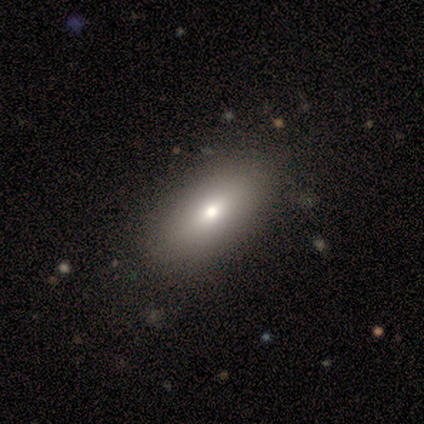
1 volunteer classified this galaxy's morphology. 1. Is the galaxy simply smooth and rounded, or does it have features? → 100% star or artifact, 0% smooth, 0% featured or disk.